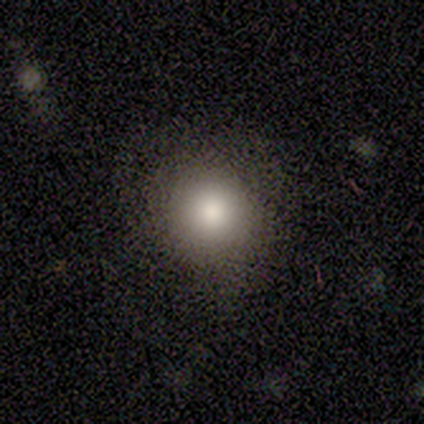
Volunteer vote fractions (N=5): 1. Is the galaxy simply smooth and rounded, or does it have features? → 100% smooth, 0% featured or disk, 0% star or artifact.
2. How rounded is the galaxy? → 100% round, 0% in between, 0% cigar-shaped.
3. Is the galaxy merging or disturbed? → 80% none, 20% minor disturbance, 0% major disturbance, 0% merger.